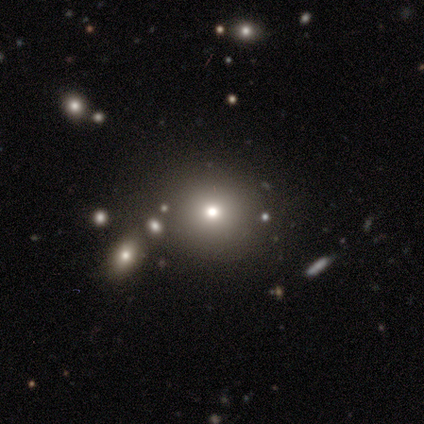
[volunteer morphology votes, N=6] This appears to be a smooth galaxy with no disk features (100%) that is round (100%). Merging: none (100%).